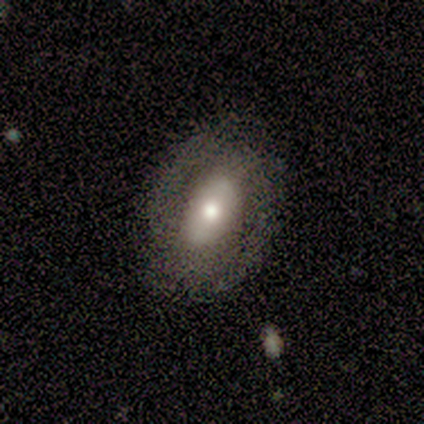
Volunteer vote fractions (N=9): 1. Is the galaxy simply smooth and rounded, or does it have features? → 67% featured or disk, 22% smooth, 11% star or artifact.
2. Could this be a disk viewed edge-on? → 100% no, 0% yes.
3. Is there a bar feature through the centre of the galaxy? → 67% strong, 17% weak, 17% no.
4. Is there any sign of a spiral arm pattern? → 83% yes, 17% no.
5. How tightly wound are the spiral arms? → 60% tight, 20% medium, 20% loose.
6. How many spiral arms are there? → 60% 2, 40% can't tell, 0% 1, 0% 3, 0% 4, 0% more than 4.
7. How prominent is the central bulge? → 100% moderate, 0% dominant, 0% large, 0% small, 0% none.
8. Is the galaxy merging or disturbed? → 75% none, 12% minor disturbance, 12% major disturbance, 0% merger.